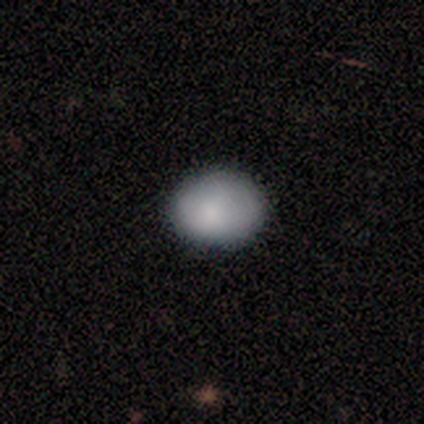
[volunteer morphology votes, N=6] This is clearly a smooth galaxy (100%). How rounded: possibly round (50%, tied with in between). Merging: clearly none (83%).